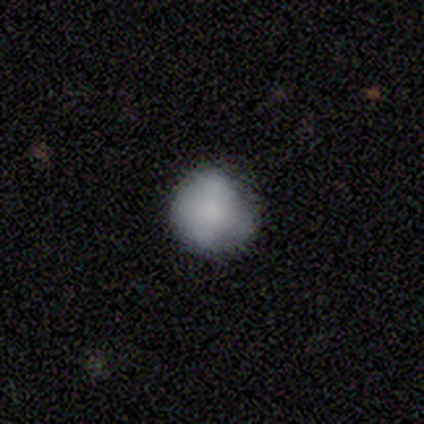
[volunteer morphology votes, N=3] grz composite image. It shows a smooth galaxy with no disk features (33%, tied with featured or disk and star or artifact) that is round (100%). Merging: none (50%, tied with minor disturbance).